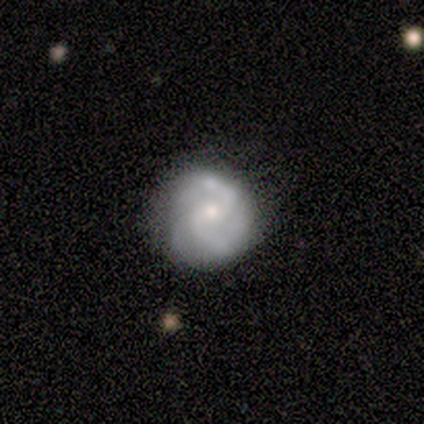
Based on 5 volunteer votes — featured or disk 80%, smooth 20%, star or artifact 0%. Down the decision tree: edge-on disk — no (100%); bar — weak (50%); spiral arms — yes (100%); spiral arm count — 2 (75%); spiral winding — tight (50%); bulge size — moderate (75%); merging — minor disturbance (60%).